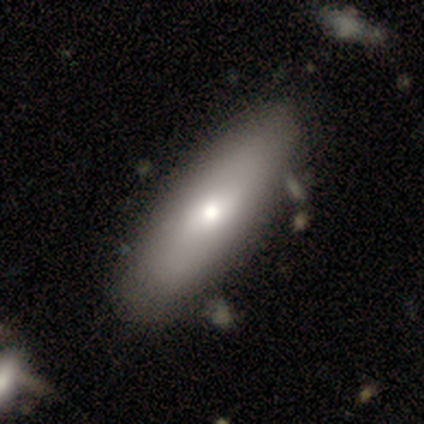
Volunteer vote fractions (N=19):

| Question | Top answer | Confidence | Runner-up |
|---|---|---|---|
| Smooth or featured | smooth | 68% | featured or disk (26%) |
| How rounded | in between | 62% | cigar-shaped (38%) |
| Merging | none | 78% | merger (11%) |